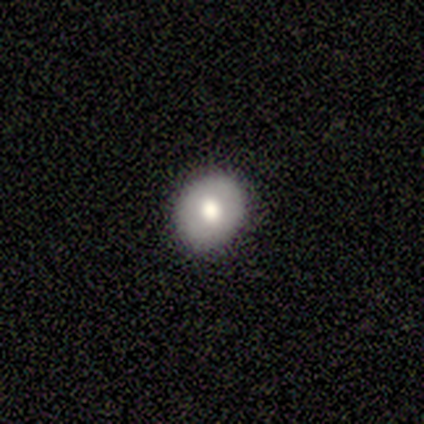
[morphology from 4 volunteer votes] This is possibly a smooth galaxy (50%, tied with featured or disk). How rounded: possibly round (50%, tied with in between). Merging: clearly none (100%).